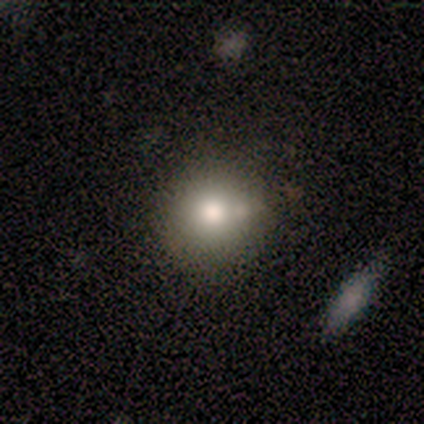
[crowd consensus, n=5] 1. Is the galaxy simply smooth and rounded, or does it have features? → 100% smooth, 0% featured or disk, 0% star or artifact.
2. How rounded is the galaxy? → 100% round, 0% in between, 0% cigar-shaped.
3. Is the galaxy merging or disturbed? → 80% none, 20% minor disturbance, 0% major disturbance, 0% merger.